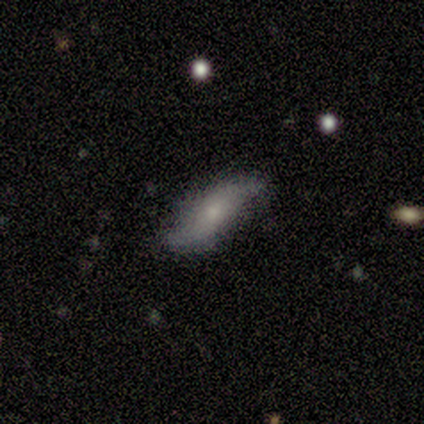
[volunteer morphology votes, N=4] Volunteers were most divided on "bulge size" (2-way tie): moderate: 50%, small: 50%, dominant: 0%, large: 0%, none: 0%. More confident: smooth or featured — featured or disk (100%); edge-on disk — no (100%); spiral arms — yes (100%); spiral arm count — 2 (100%); merging — none (100%); bar — no (75%); spiral winding — loose (75%).